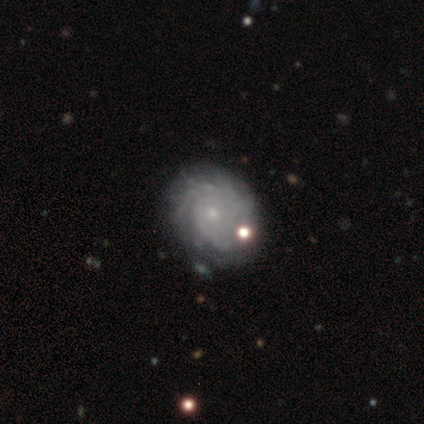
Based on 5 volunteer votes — Smooth or featured?
  - featured or disk: 100% *
  - smooth: 0%
  - star or artifact: 0%
Edge-on disk?
  - no: 100% *
  - yes: 0%
Bar?
  - no: 100% *
  - strong: 0%
  - weak: 0%
Spiral arms?
  - yes: 100% *
  - no: 0%
Spiral winding?
  - tight: 100% *
  - medium: 0%
  - loose: 0%
Spiral arm count?
  - 2: 40% * (tied)
  - can't tell: 40% * (tied)
  - more than 4: 20%
  - 1: 0%
  - 3: 0%
  - 4: 0%
Bulge size?
  - small: 80% *
  - moderate: 20%
  - dominant: 0%
  - large: 0%
  - none: 0%
Merging?
  - none: 80% *
  - minor disturbance: 20%
  - major disturbance: 0%
  - merger: 0%